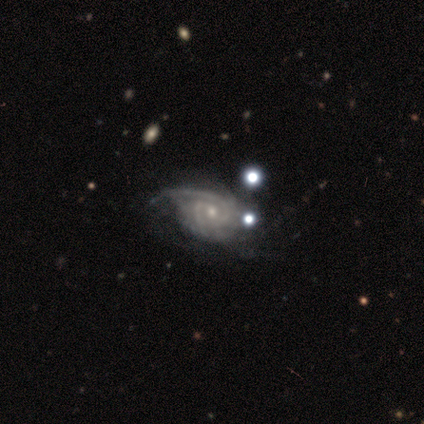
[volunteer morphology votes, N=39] Smooth or featured?
  - featured or disk: 90% *
  - star or artifact: 8%
  - smooth: 3%
Edge-on disk?
  - no: 100% *
  - yes: 0%
Bar?
  - no: 74% *
  - weak: 20%
  - strong: 6%
Spiral arms?
  - yes: 100% *
  - no: 0%
Spiral winding?
  - tight: 57% *
  - medium: 34%
  - loose: 9%
Spiral arm count?
  - 2: 31% * (tied)
  - can't tell: 31% * (tied)
  - 1: 14%
  - 3: 14%
  - more than 4: 9%
  - 4: 0%
Bulge size?
  - small: 63% *
  - moderate: 29%
  - dominant: 6%
  - none: 3%
  - large: 0%
Merging?
  - minor disturbance: 28% *
  - major disturbance: 22%
  - none: 19%
  - merger: 3%